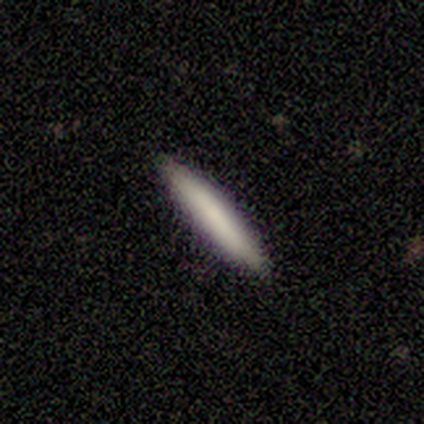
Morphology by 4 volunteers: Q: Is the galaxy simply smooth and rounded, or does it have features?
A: smooth — 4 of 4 (100%).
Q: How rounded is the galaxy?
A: in between — 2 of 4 (50%, tied with cigar-shaped).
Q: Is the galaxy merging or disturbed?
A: none — 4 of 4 (100%).